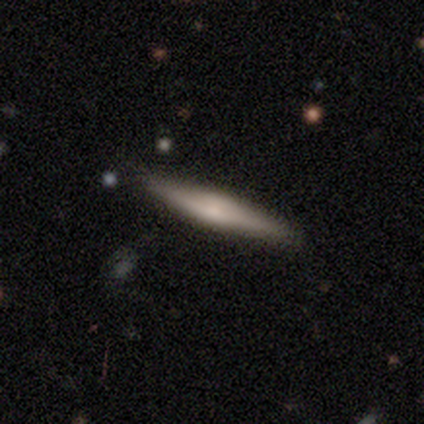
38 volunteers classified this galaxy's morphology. Smooth or featured? featured or disk (55%)
Edge-on disk? yes (90%)
Edge-on bulge? rounded (74%)
Merging? none (89%)